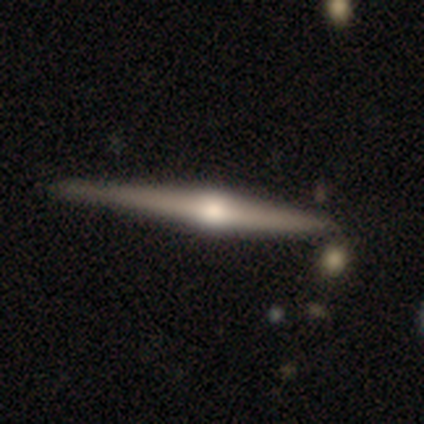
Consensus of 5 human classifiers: Q: Smooth or featured?
A: featured or disk (100%)
Q: Edge-on disk?
A: yes (100%)
Q: Edge-on bulge?
A: rounded (100%)
Q: Merging?
A: none (40%); tied with: minor disturbance (40%)